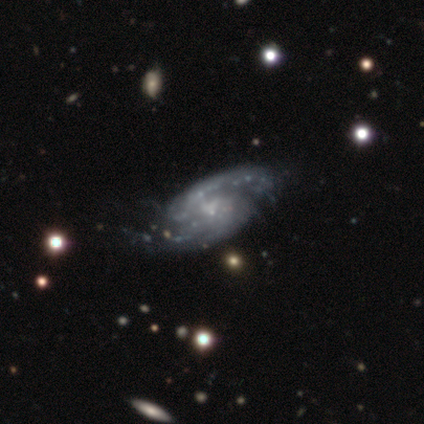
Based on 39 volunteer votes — smooth_or_featured: featured or disk (p=1.00)
disk_edge_on: no (p=0.95) [alt: yes p=0.05]
bar: no (p=0.70) [alt: weak p=0.30]
has_spiral_arms: yes (p=0.97) [alt: no p=0.03]
spiral_winding: medium (p=0.56) [alt: tight p=0.25]
spiral_arm_count: 2 (p=0.83) [alt: can't tell p=0.08]
bulge_size: small (p=0.59) [alt: none p=0.30]
merging: none (p=0.51) [alt: minor disturbance p=0.21]